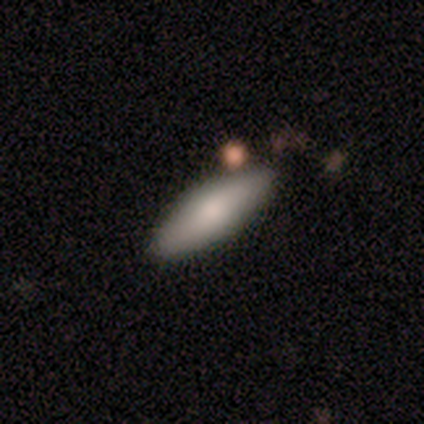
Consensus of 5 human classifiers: smooth-or-featured: smooth: 60% | featured or disk: 40% | star or artifact: 0%
  how-rounded: cigar-shaped: 67% | in between: 33% | round: 0%
  merging: none: 80% | minor disturbance: 20% | major disturbance: 0% | merger: 0%